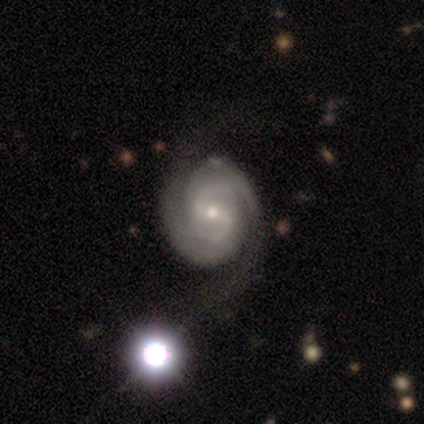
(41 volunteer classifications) featured or disk 95%, smooth 2%, star or artifact 2%. Down the decision tree: edge-on disk — no (100%); bar — weak (67%); spiral arms — yes (100%); spiral arm count — 2 (82%); spiral winding — tight (56%); bulge size — small (64%); merging — none (28%).